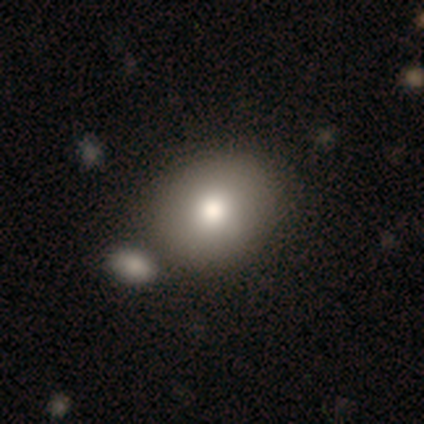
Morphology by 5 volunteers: smooth_or_featured: smooth (p=1.00)
how_rounded: round (p=0.60) [alt: in between p=0.40]
merging: none (p=0.80) [alt: major disturbance p=0.20]